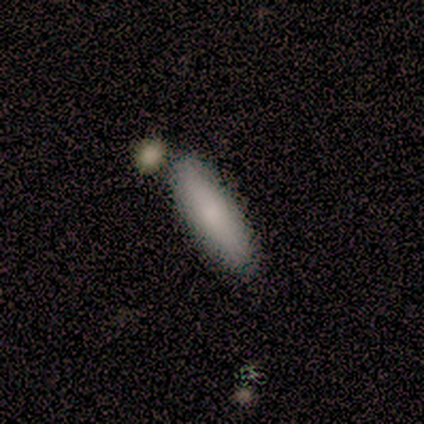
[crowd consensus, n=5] Volunteers were most divided on "how rounded" (2-way tie): in between: 50%, cigar-shaped: 50%, round: 0%. More confident: smooth or featured — smooth (80%); merging — none (80%).